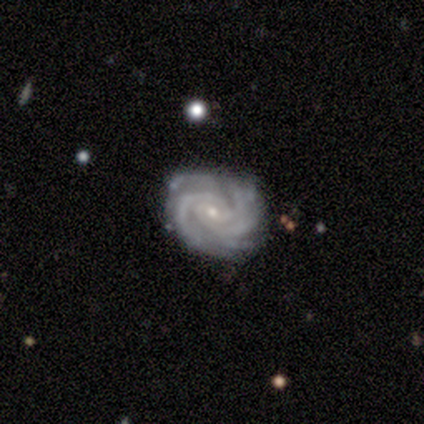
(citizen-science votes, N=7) Smooth or featured? 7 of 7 (100%) said featured or disk. Edge-on disk? 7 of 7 (100%) said no. Bar? 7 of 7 (100%) said no. Spiral arms? 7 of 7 (100%) said yes. Spiral winding? 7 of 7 (100%) said tight. Spiral arm count? 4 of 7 (57%) said more than 4. Bulge size? 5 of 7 (71%) said small. Merging? 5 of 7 (71%) said none.